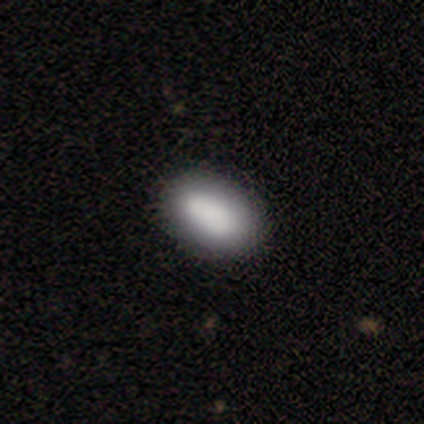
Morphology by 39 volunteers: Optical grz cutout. It shows a smooth galaxy with no disk features (87%) that is in between round and cigar-shaped (88%). Merging: none (69%).